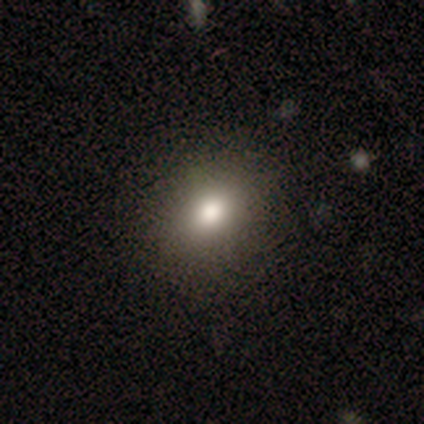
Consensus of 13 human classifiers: Smooth or featured?
  - smooth: 77% *
  - featured or disk: 15%
  - star or artifact: 8%
How rounded?
  - round: 60% *
  - in between: 40%
  - cigar-shaped: 0%
Merging?
  - none: 83% *
  - minor disturbance: 17%
  - major disturbance: 0%
  - merger: 0%